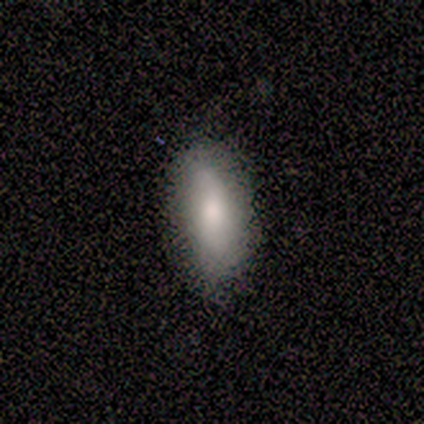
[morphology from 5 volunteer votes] smooth_or_featured: smooth (p=0.80) [alt: star or artifact p=0.20]
how_rounded: in between (p=1.00)
merging: none (p=0.75) [alt: minor disturbance p=0.25]